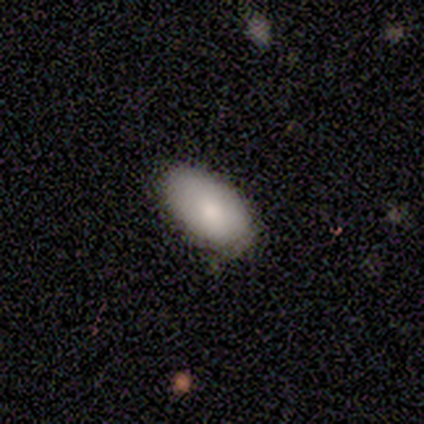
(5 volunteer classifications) smooth_or_featured: smooth (p=0.60) [alt: featured or disk p=0.20]
how_rounded: in between (p=1.00)
merging: minor disturbance (p=0.75) [alt: none p=0.25]